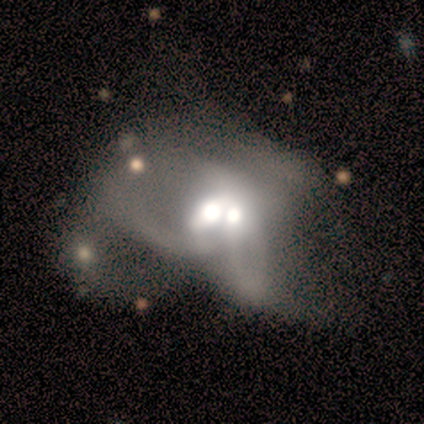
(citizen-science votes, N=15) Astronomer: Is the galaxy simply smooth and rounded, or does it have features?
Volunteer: featured or disk — 60% (runner-up: smooth, 40%).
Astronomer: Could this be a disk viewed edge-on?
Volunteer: no — 89%.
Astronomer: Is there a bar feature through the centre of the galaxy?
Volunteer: weak — 62%.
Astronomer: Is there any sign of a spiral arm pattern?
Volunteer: no — 88%.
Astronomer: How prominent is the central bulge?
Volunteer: moderate — 88%.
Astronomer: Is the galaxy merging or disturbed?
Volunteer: merger — 80%.